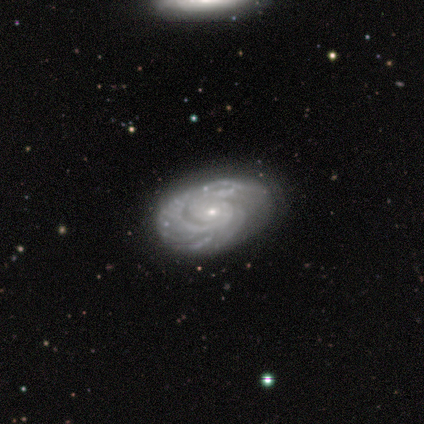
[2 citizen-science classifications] Volunteers were most divided on "spiral winding" (2-way tie): tight: 50%, medium: 50%, loose: 0%. More confident: smooth or featured — featured or disk (100%); edge-on disk — no (100%); bar — no (100%); spiral arms — yes (100%); spiral arm count — can't tell (100%); bulge size — small (100%); merging — none (100%).